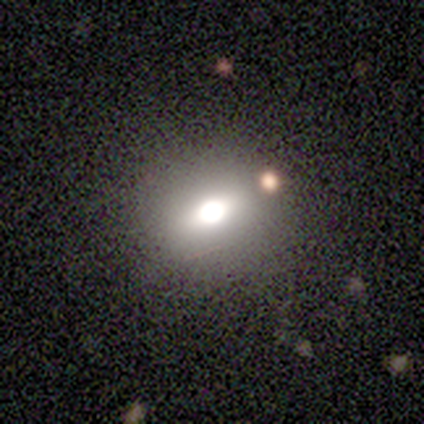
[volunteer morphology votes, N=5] This is likely a smooth galaxy (60%). How rounded: likely round (67%). Merging: clearly none (100%).